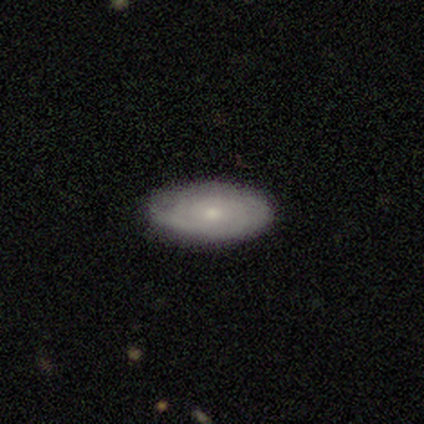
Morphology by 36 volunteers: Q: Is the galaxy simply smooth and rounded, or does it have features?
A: featured or disk — 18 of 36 (50%).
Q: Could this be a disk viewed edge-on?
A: no — 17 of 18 (94%).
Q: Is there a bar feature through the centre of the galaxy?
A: no — 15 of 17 (88%).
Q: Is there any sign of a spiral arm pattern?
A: yes — 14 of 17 (82%).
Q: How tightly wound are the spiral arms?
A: tight — 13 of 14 (93%).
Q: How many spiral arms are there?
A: can't tell — 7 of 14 (50%).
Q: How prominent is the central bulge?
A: small — 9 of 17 (53%).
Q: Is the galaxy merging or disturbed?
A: none — 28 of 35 (80%).